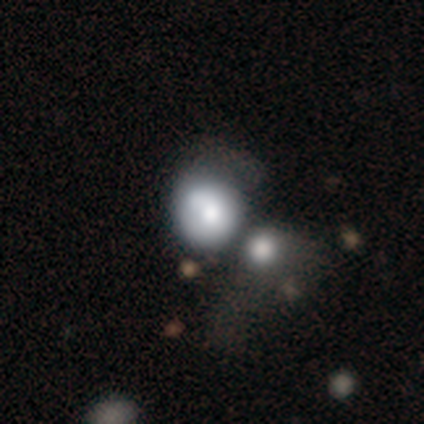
A smooth galaxy with no disk features (50%) that is round (50%, tied with in between).

Vote fractions:
- Smooth or featured? smooth: 50% / featured or disk: 25% / star or artifact: 25%
- How rounded? round: 50% (tied) / in between: 50% (tied) / cigar-shaped: 0%
- Merging? merger: 67% / minor disturbance: 33% / none: 0% / major disturbance: 0%